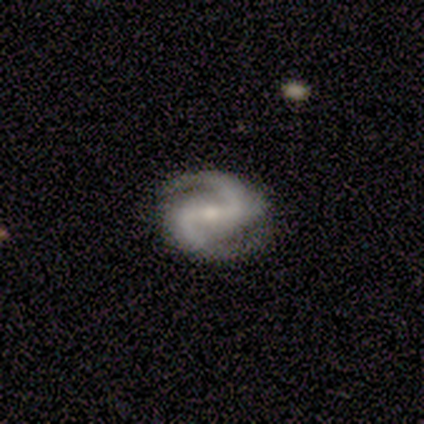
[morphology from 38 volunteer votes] Smooth or featured? featured or disk (95%)
Edge-on disk? no (92%)
Bar? strong (58%)
Spiral arms? yes (100%)
Spiral winding? medium (52%)
Spiral arm count? 2 (100%)
Bulge size? small (52%)
Merging? none (86%)